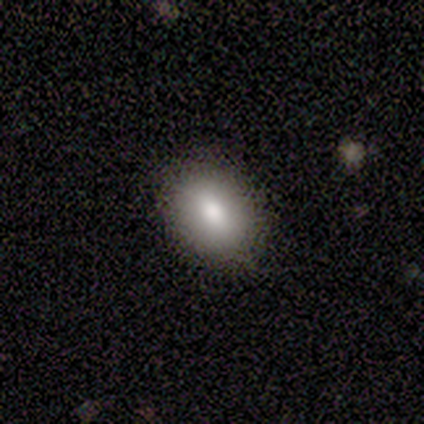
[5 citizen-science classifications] smooth_or_featured: smooth (p=0.80) [alt: featured or disk p=0.20]
how_rounded: round (p=0.75) [alt: in between p=0.25]
merging: none (p=1.00)